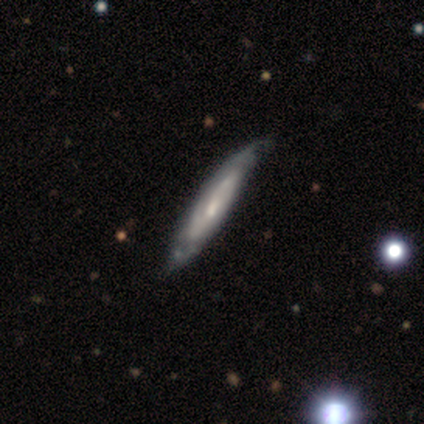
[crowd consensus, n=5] Volunteers were most divided on "edge-on disk": yes: 60%, no: 40%. More confident: smooth or featured — featured or disk (100%); edge-on bulge — none (100%); merging — none (60%).